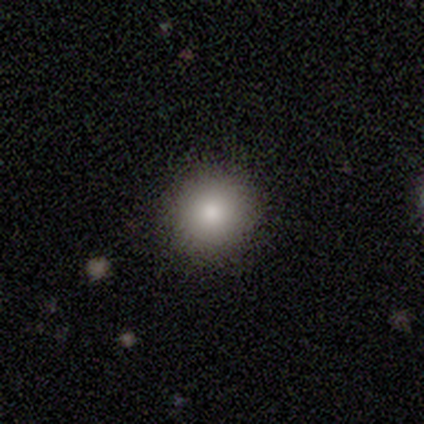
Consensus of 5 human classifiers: Smooth or featured? smooth (100%)
How rounded? round (100%)
Merging? none (100%)